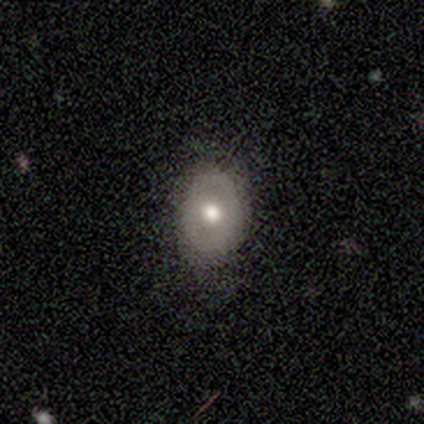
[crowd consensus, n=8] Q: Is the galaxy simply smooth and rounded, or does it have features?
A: smooth — 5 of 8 (62%).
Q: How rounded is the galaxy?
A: in between — 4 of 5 (80%).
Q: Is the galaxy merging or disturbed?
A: none — 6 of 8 (75%).